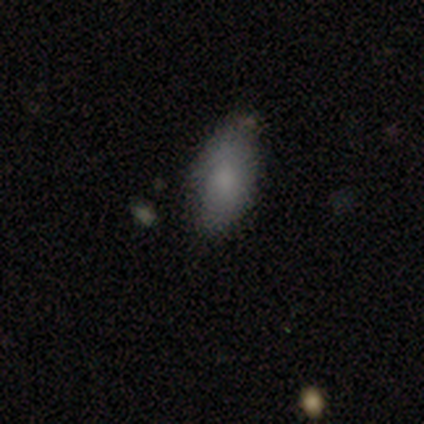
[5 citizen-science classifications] Smooth or featured? smooth (60%)
How rounded? in between (100%)
Merging? none (75%)